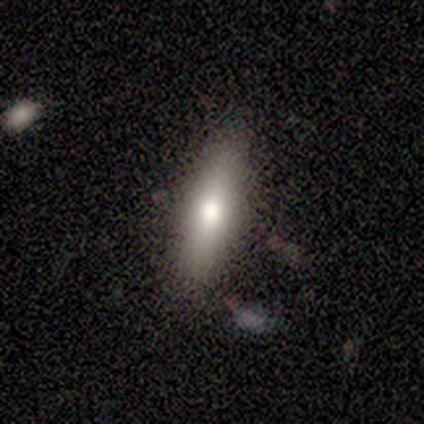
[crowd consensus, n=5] A featured or disk galaxy (60%) viewed edge-on (67%) with a rounded central bulge (100%).

Vote fractions:
- Smooth or featured? featured or disk: 60% / smooth: 40% / star or artifact: 0%
- Edge-on disk? yes: 67% / no: 33%
- Edge-on bulge? rounded: 100% / boxy: 0% / none: 0%
- Merging? none: 60% / minor disturbance: 40% / major disturbance: 0% / merger: 0%